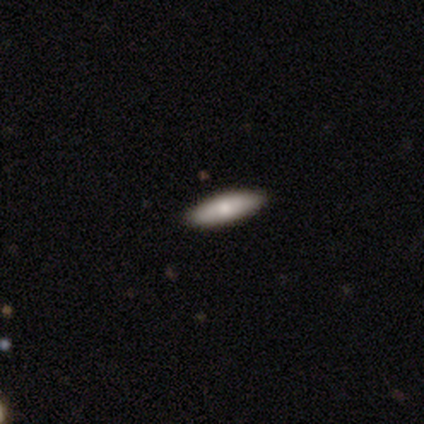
Smooth or featured: smooth — 73% (featured or disk — 27%)
How rounded: cigar-shaped — 64% (in between — 36%)
Merging: none — 93% (major disturbance — 7%)